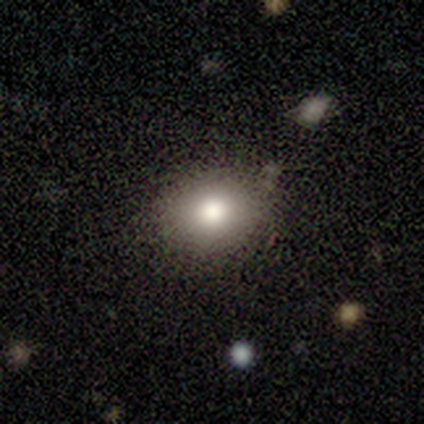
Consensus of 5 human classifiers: smooth-or-featured: smooth: 100% | featured or disk: 0% | star or artifact: 0%
  how-rounded: round: 80% | in between: 20% | cigar-shaped: 0%
  merging: none: 80% | major disturbance: 20% | minor disturbance: 0% | merger: 0%